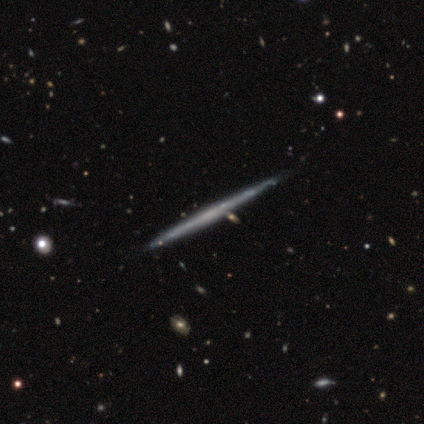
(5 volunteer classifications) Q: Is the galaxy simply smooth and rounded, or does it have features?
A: featured or disk — 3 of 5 (60%).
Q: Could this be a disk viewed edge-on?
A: yes — 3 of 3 (100%).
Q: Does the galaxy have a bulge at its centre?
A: none — 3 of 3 (100%).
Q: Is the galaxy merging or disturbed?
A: none — 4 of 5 (80%).